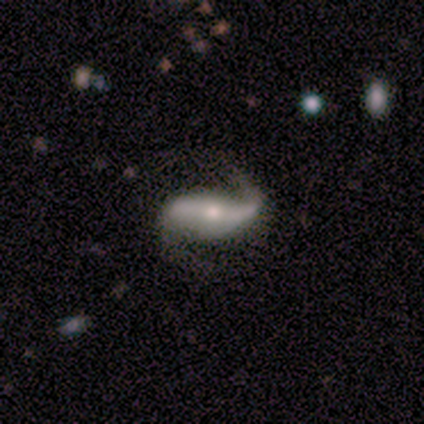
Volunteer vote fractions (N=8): Smooth or featured: featured or disk — 88% (star or artifact — 12%)
Edge-on disk: no — 86% (yes — 14%)
Bar: strong — 50% (weak — 33%)
Spiral arms: yes — 100%
Spiral winding: loose — 83% (medium — 17%)
Spiral arm count: 2 — 100%
Bulge size: moderate — 50% (tied with small — 50%)
Merging: none — 57% (major disturbance — 29%)